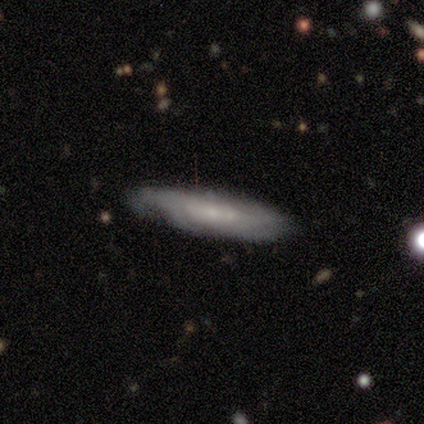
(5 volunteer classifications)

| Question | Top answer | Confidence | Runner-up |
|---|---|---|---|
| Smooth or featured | featured or disk | 60% | smooth (40%) |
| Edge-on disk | no | 67% | yes (33%) |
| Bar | no | 100% | — |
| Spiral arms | yes | 50% | tied: no (50%) |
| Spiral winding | tight | 100% | — |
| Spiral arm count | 3 | 100% | — |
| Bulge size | small | 100% | — |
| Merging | none | 80% | minor disturbance (20%) |